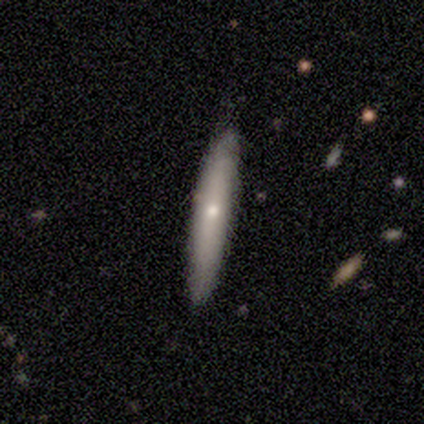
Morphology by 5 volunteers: smooth-or-featured: smooth: 60% | featured or disk: 40% | star or artifact: 0%
  how-rounded: cigar-shaped: 100% | round: 0% | in between: 0%
  merging: none: 80% | minor disturbance: 20% | major disturbance: 0% | merger: 0%